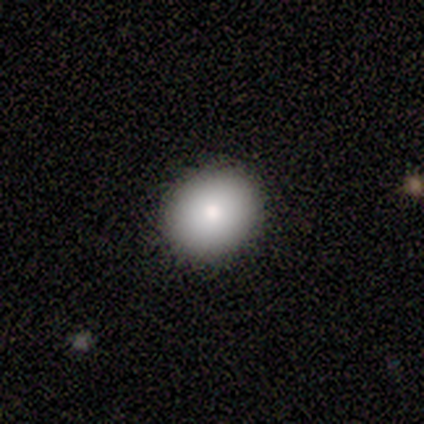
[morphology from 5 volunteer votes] This appears to be a smooth galaxy with no disk features (80%) that is round (50%, tied with in between). Merging: none (80%).